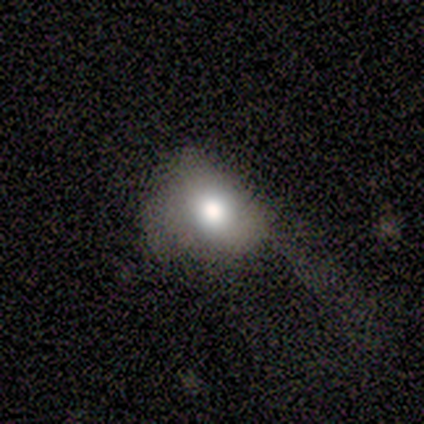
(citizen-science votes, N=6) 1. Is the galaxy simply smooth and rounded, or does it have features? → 67% smooth, 17% featured or disk, 17% star or artifact.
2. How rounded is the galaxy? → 75% in between, 25% round, 0% cigar-shaped.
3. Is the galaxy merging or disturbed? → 60% none, 40% major disturbance, 0% minor disturbance, 0% merger.